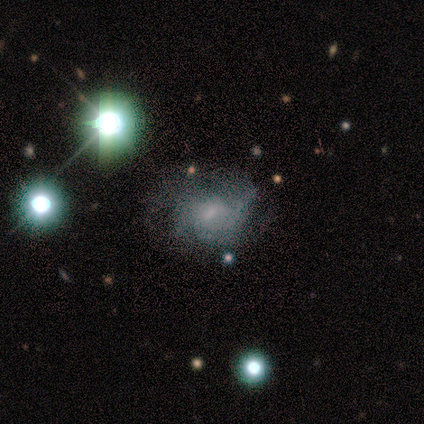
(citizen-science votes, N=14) Volunteers were most divided on "merging": none: 46%, major disturbance: 38%, minor disturbance: 15%, merger: 0%. Remaining: edge-on disk — no (100%); spiral arms — yes (78%); spiral winding — medium (71%); bar — no (67%); smooth or featured — featured or disk (64%); bulge size — moderate (56%); spiral arm count — 3 (43%).